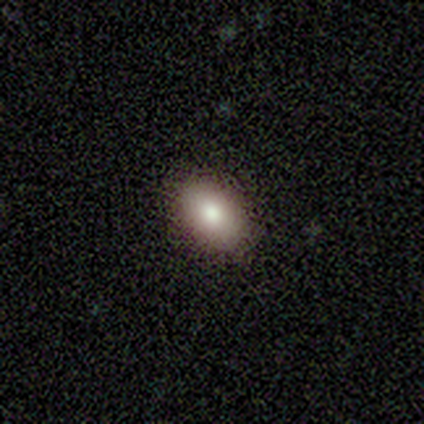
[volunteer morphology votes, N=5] Overall: smooth (100%). How rounded: in between (100%). Merging: none (100%).